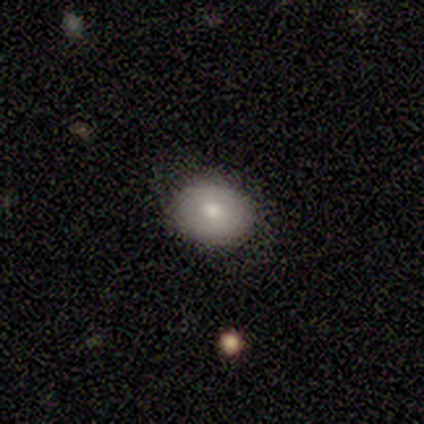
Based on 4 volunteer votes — This appears to be a smooth galaxy with no disk features (100%) that is in between round and cigar-shaped (75%). Merging: none (75%).